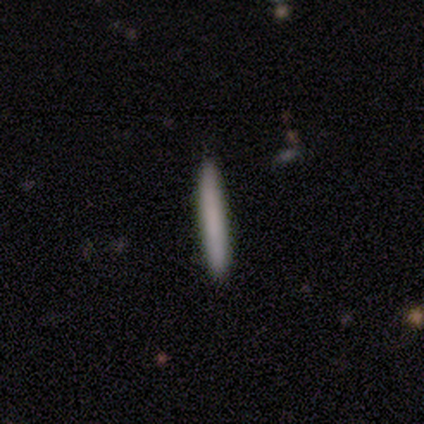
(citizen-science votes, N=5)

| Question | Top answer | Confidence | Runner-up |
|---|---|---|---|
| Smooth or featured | smooth | 80% | star or artifact (20%) |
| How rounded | cigar-shaped | 75% | in between (25%) |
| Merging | none | 100% | — |